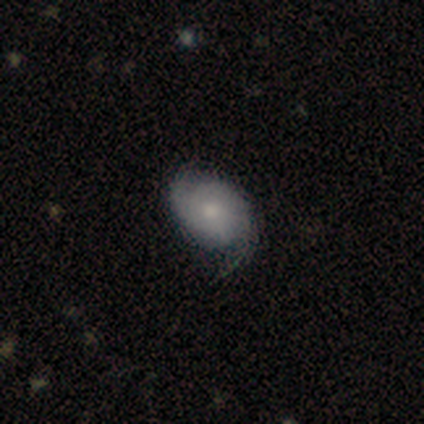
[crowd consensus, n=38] This appears to be a smooth galaxy with no disk features (50%) that is in between round and cigar-shaped (79%). Merging: none (46%, tied with minor disturbance).